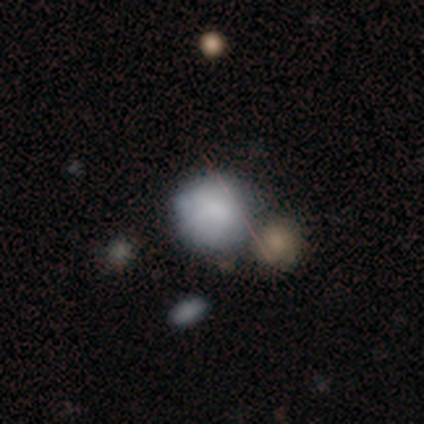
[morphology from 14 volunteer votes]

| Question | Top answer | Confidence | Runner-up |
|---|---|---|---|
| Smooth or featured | smooth | 79% | featured or disk (21%) |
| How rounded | round | 91% | in between (9%) |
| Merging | none | 50% | minor disturbance (29%) |